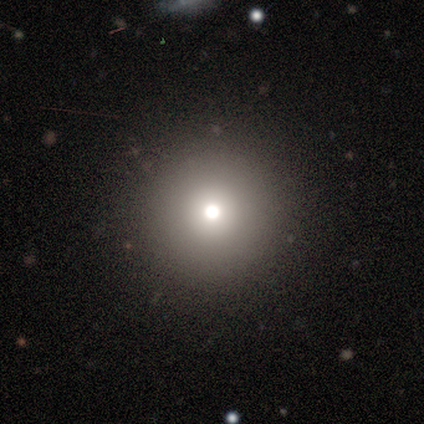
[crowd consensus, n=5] Q: Smooth or featured?
A: smooth (80%); runner-up: star or artifact (20%)
Q: How rounded?
A: round (100%)
Q: Merging?
A: none (100%)